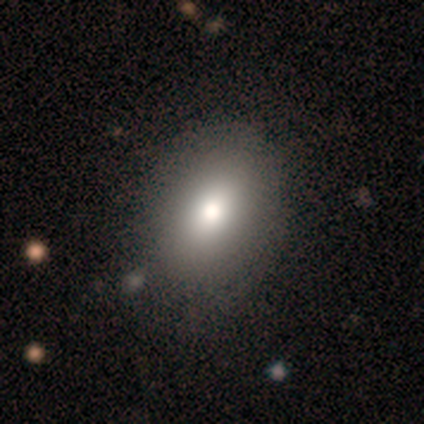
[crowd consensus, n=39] smooth-or-featured: smooth: 87% | featured or disk: 13% | star or artifact: 0%
  how-rounded: in between: 74% | round: 24% | cigar-shaped: 3%
  merging: none: 33% | minor disturbance: 13% | major disturbance: 5% | merger: 3%